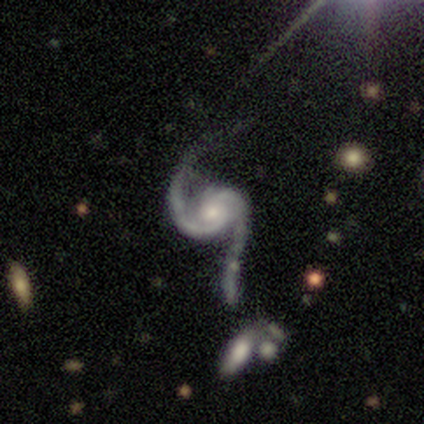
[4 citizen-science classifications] Volunteers were most divided on "spiral winding": medium: 50%, tight: 25%, loose: 25%. More confident: smooth or featured — featured or disk (100%); edge-on disk — no (100%); spiral arms — yes (100%); spiral arm count — 2 (100%); bar — no (75%); bulge size — moderate (75%); merging — minor disturbance (50%).